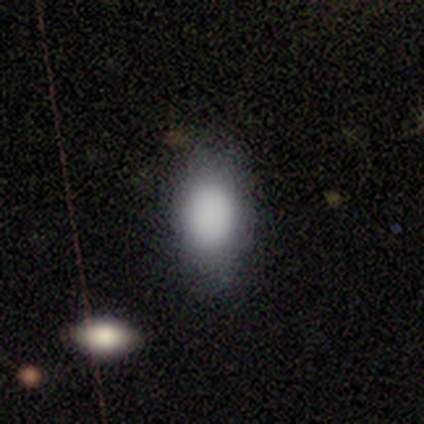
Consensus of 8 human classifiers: Volunteers were most divided on "how rounded": in between: 88%, round: 12%, cigar-shaped: 0%. More confident: smooth or featured — smooth (100%); merging — none (88%).